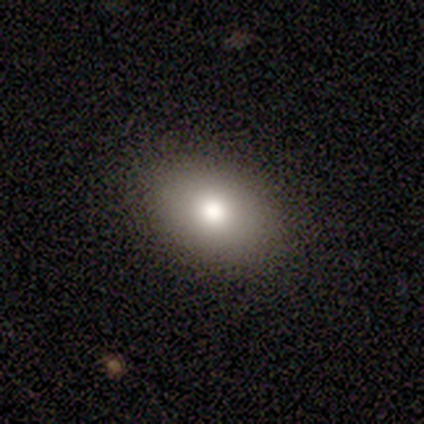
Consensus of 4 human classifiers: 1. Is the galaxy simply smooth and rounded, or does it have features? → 75% smooth, 25% star or artifact, 0% featured or disk.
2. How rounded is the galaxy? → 67% in between, 33% round, 0% cigar-shaped.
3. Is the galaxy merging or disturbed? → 67% none, 33% major disturbance, 0% minor disturbance, 0% merger.